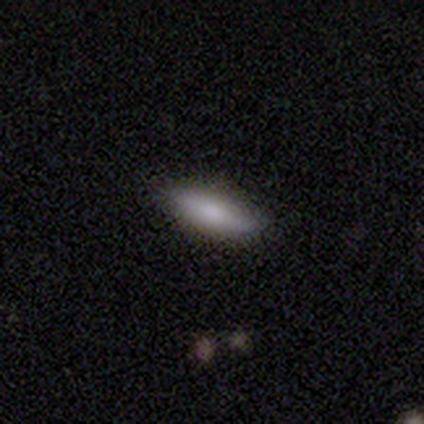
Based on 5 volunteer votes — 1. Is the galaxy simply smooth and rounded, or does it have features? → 100% smooth, 0% featured or disk, 0% star or artifact.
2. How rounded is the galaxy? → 100% cigar-shaped, 0% round, 0% in between.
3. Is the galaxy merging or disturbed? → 80% none, 20% minor disturbance, 0% major disturbance, 0% merger.